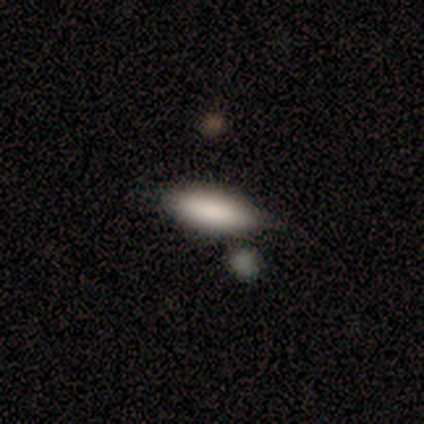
Q: Smooth or featured?
A: smooth (100%)
Q: How rounded?
A: in between (80%); runner-up: cigar-shaped (20%)
Q: Merging?
A: none (80%); runner-up: merger (20%)